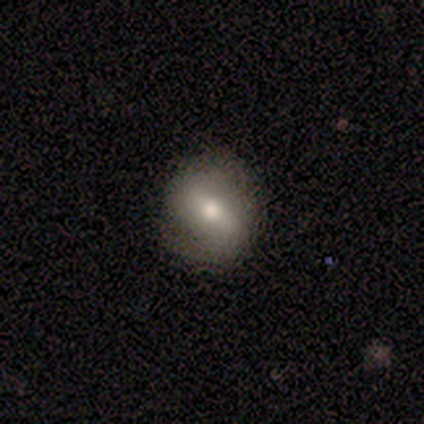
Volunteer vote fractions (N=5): Smooth or featured? featured or disk (60%)
Edge-on disk? no (67%)
Bar? strong (100%)
Spiral arms? yes (100%)
Spiral winding? medium (100%)
Spiral arm count? 2 (100%)
Bulge size? moderate (100%)
Merging? none (60%)